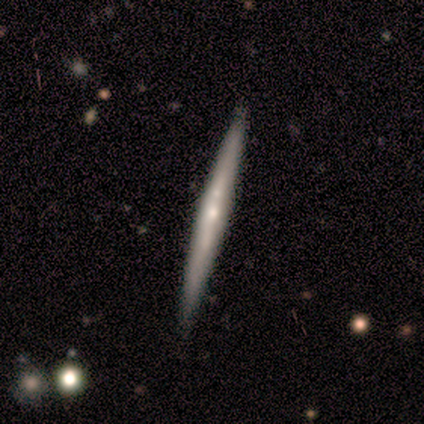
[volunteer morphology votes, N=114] featured or disk 67%, smooth 29%, star or artifact 4%. Down the decision tree: edge-on disk — yes (93%); edge-on bulge — rounded (56%); merging — none (84%).